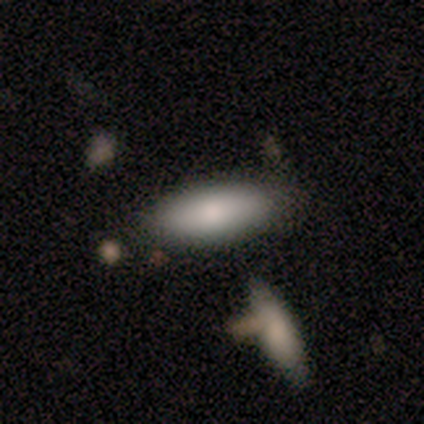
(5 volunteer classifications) smooth_or_featured: smooth (p=1.00)
how_rounded: in between (p=0.80) [alt: cigar-shaped p=0.20]
merging: none (p=0.80) [alt: merger p=0.20]